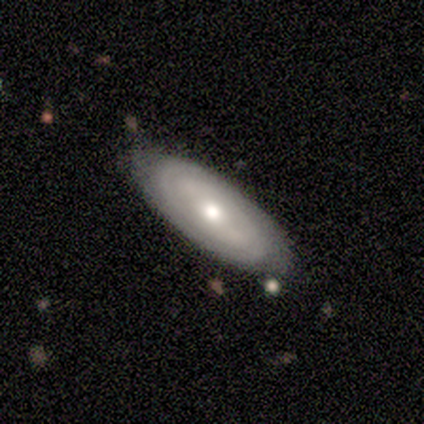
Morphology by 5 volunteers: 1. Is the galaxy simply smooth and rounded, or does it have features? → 80% featured or disk, 20% smooth, 0% star or artifact.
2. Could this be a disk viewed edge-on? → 100% no, 0% yes.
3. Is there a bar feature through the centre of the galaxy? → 50% no, 25% strong, 25% weak.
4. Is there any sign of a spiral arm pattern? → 100% yes, 0% no.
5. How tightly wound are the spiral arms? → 100% tight, 0% medium, 0% loose.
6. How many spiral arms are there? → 100% can't tell, 0% 1, 0% 2, 0% 3, 0% 4, 0% more than 4.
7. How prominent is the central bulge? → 75% small, 25% moderate, 0% dominant, 0% large, 0% none.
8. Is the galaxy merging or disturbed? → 100% none, 0% minor disturbance, 0% major disturbance, 0% merger.